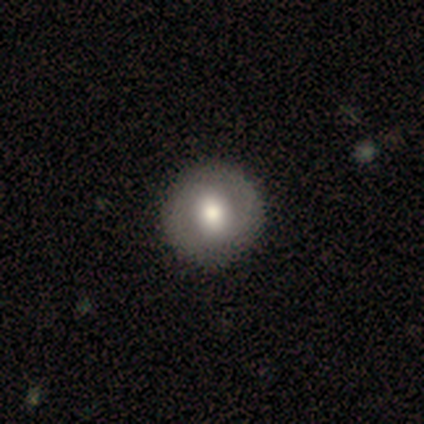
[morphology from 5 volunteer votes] Overall: smooth (60%; featured or disk 40%). How rounded: round (67%; in between 33%). Merging: none (80%).